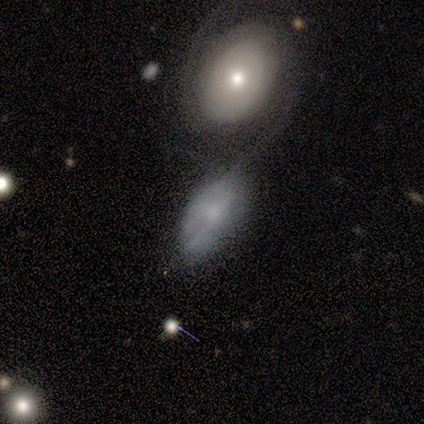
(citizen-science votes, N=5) smooth-or-featured: featured or disk: 60% | smooth: 40% | star or artifact: 0%
  disk-edge-on: no: 100% | yes: 0%
    bar: no: 100% | strong: 0% | weak: 0%
    has-spiral-arms: yes: 100% | no: 0%
      spiral-winding: medium: 67% | tight: 33% | loose: 0%
      spiral-arm-count: 2: 33% (tied) | 3: 33% (tied) | can't tell: 33% (tied) | 1: 0% | 4: 0% | more than 4: 0%
    bulge-size: moderate: 67% | large: 33% | dominant: 0% | small: 0% | none: 0%
  merging: merger: 60% | none: 40% | minor disturbance: 0% | major disturbance: 0%